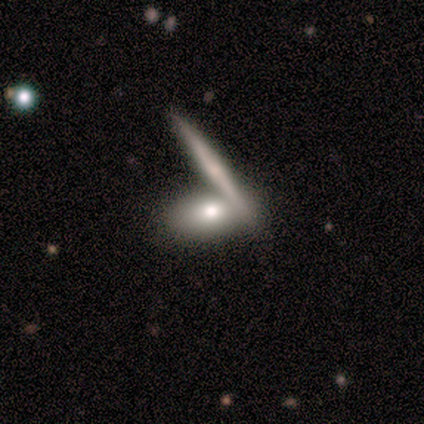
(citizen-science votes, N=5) smooth_or_featured: featured or disk (p=0.60) [alt: smooth p=0.40]
disk_edge_on: yes (p=0.67) [alt: no p=0.33]
edge_on_bulge: rounded (p=1.00)
merging: none (p=0.80) [alt: merger p=0.20]